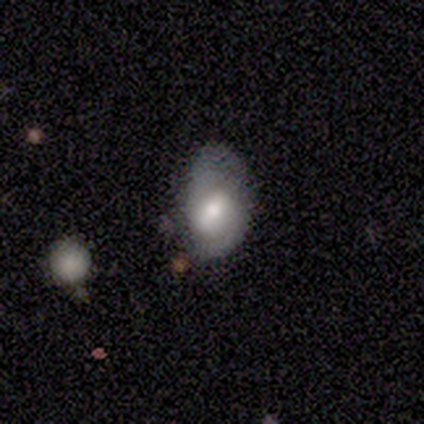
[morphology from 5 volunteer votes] Smooth or featured: smooth — 60% (featured or disk — 40%)
How rounded: in between — 100%
Merging: minor disturbance — 60% (none — 40%)